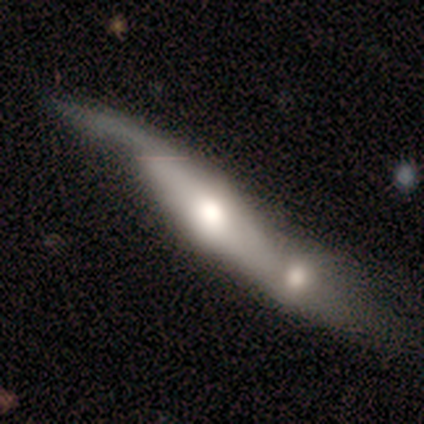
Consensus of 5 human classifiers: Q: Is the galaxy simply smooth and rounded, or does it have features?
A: smooth — 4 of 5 (80%).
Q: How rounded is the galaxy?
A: cigar-shaped — 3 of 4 (75%).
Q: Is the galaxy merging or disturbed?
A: minor disturbance — 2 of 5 (40%, tied with merger).